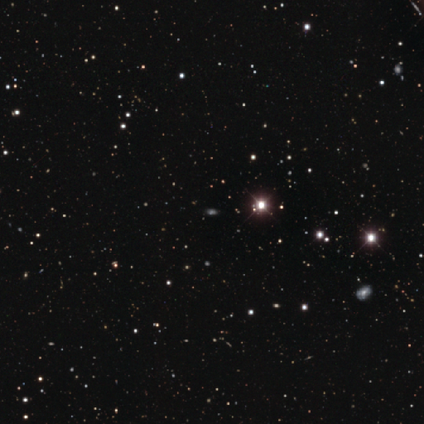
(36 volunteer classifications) Volunteers were most divided on "smooth or featured": star or artifact: 78%, smooth: 22%, featured or disk: 0%.